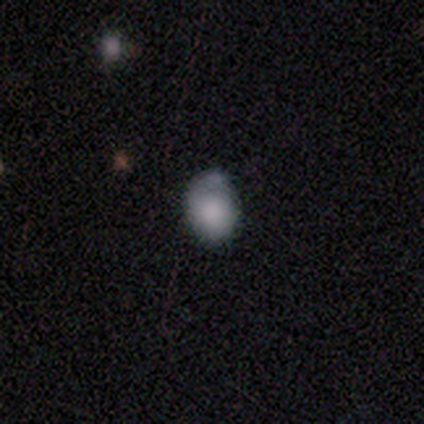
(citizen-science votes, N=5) smooth-or-featured: smooth: 80% | featured or disk: 20% | star or artifact: 0%
  how-rounded: round: 50% (tied) | in between: 50% (tied) | cigar-shaped: 0%
  merging: minor disturbance: 60% | none: 40% | major disturbance: 0% | merger: 0%